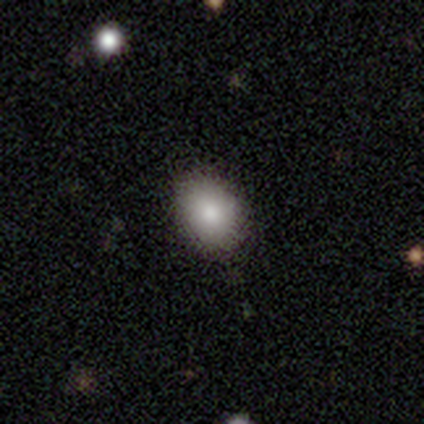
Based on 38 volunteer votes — smooth 82%, star or artifact 11%, featured or disk 8%. Down the decision tree: how rounded — in between (68%); merging — none (76%).